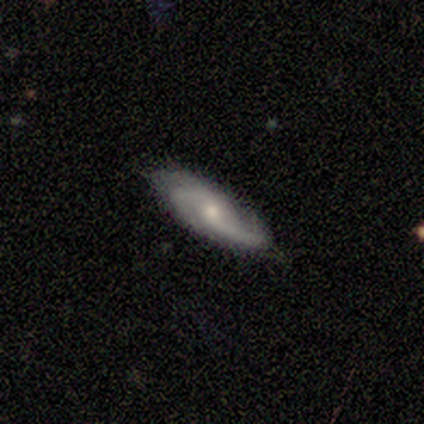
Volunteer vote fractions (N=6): A featured or disk galaxy (83%) with a weak bar (50%, tied with no), 2 (75%) medium (100%) spiral arms (100%) and a moderate central bulge (50%, tied with small).

Vote fractions:
- Smooth or featured? featured or disk: 83% / smooth: 17% / star or artifact: 0%
- Edge-on disk? no: 80% / yes: 20%
- Bar? weak: 50% (tied) / no: 50% (tied) / strong: 0%
- Spiral arms? yes: 100% / no: 0%
- Spiral winding? medium: 100% / tight: 0% / loose: 0%
- Spiral arm count? 2: 75% / can't tell: 25% / 1: 0% / 3: 0% / 4: 0% / more than 4: 0%
- Bulge size? moderate: 50% (tied) / small: 50% (tied) / dominant: 0% / large: 0% / none: 0%
- Merging? none: 83% / minor disturbance: 17% / major disturbance: 0% / merger: 0%